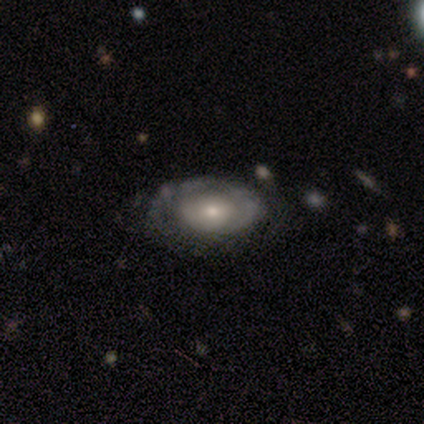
smooth-or-featured: featured or disk: 60% | smooth: 40% | star or artifact: 0%
  disk-edge-on: no: 100% | yes: 0%
    bar: no: 100% | strong: 0% | weak: 0%
    has-spiral-arms: yes: 67% | no: 33%
      spiral-winding: tight: 50% (tied) | medium: 50% (tied) | loose: 0%
      spiral-arm-count: 1: 100% | 2: 0% | 3: 0% | 4: 0% | more than 4: 0% | can't tell: 0%
    bulge-size: moderate: 67% | small: 33% | dominant: 0% | large: 0% | none: 0%
  merging: none: 60% | major disturbance: 40% | minor disturbance: 0% | merger: 0%